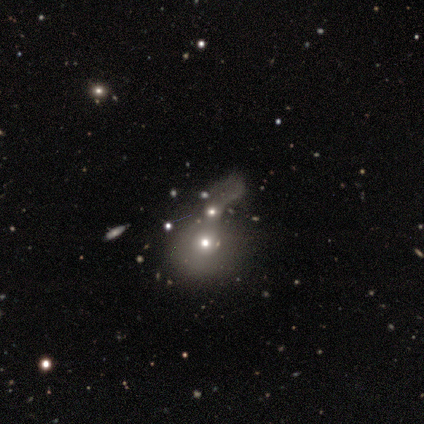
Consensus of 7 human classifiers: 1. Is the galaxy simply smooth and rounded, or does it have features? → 57% featured or disk, 29% smooth, 14% star or artifact.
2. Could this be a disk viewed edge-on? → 100% no, 0% yes.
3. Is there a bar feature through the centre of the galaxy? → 100% no, 0% strong, 0% weak.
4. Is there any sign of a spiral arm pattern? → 100% no, 0% yes.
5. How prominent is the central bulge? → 75% moderate, 25% small, 0% dominant, 0% large, 0% none.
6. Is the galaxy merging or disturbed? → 67% merger, 17% minor disturbance, 17% major disturbance, 0% none.